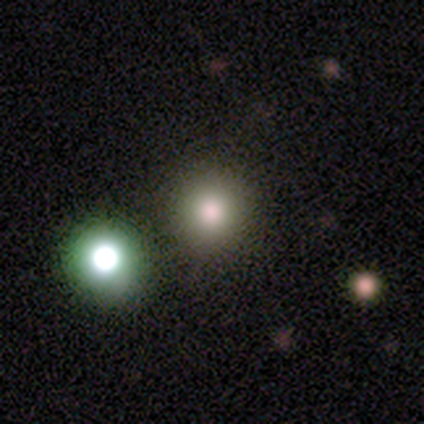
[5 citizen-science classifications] smooth_or_featured: smooth (p=0.40) [tied with: star or artifact p=0.40]
how_rounded: round (p=1.00)
merging: merger (p=0.67) [alt: none p=0.33]